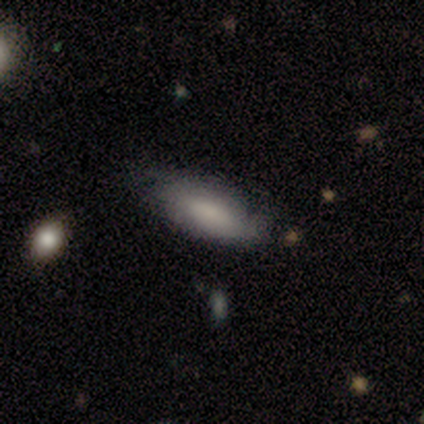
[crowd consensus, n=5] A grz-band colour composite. It shows a smooth galaxy with no disk features (60%) that is in between round and cigar-shaped (67%). Merging: none (60%).